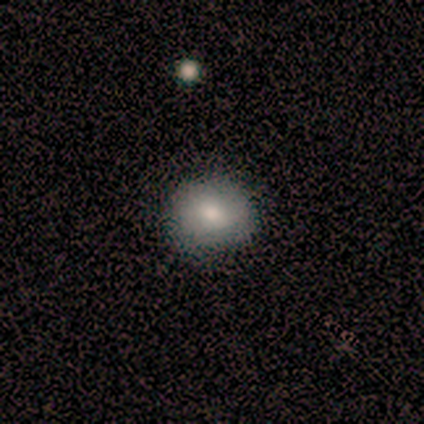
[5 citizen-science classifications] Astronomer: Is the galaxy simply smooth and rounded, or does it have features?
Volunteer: smooth — 60% (runner-up: star or artifact, 40%).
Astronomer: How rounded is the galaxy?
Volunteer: in between — 67%.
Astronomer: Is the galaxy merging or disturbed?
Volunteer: none — 100%.